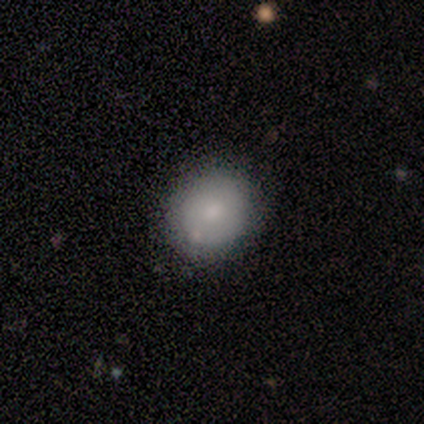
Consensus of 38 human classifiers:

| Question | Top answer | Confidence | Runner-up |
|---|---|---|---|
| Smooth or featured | smooth | 79% | featured or disk (16%) |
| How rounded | round | 80% | in between (20%) |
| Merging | none | 72% | minor disturbance (19%) |